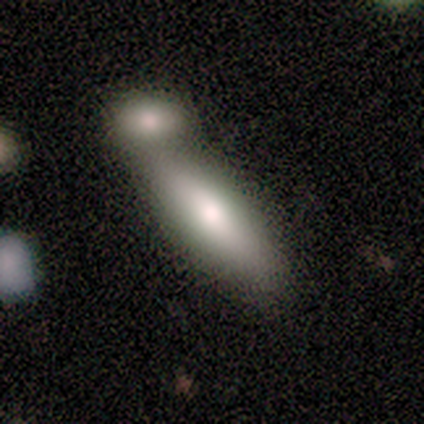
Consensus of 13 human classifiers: This is clearly a smooth galaxy (85%). How rounded: likely in between (73%). Merging: likely merger (77%).